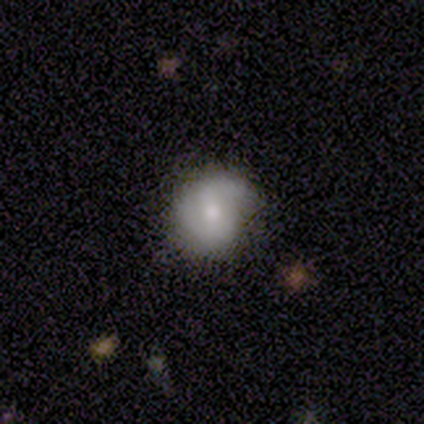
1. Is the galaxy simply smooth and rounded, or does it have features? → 54% smooth, 41% featured or disk, 5% star or artifact.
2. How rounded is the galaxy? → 70% round, 30% in between, 0% cigar-shaped.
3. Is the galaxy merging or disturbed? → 63% none, 31% minor disturbance, 6% major disturbance, 0% merger.